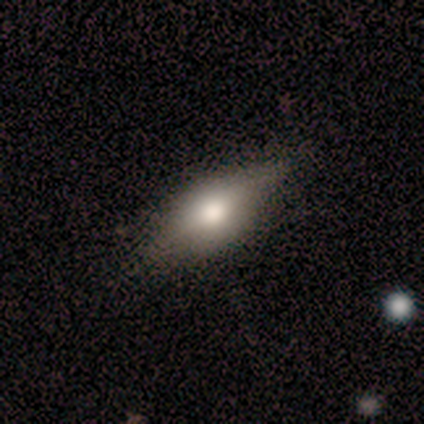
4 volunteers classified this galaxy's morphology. A smooth galaxy with no disk features (50%) that is in between round and cigar-shaped (100%). Merging: none (67%).